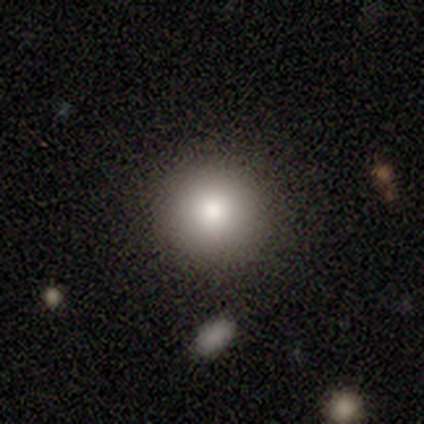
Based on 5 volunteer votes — Overall: smooth (80%). How rounded: round (100%). Merging: none (80%).